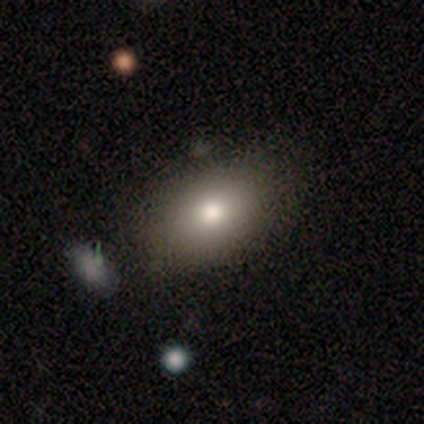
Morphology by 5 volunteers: Volunteers were most divided on "smooth or featured": featured or disk: 60%, smooth: 40%, star or artifact: 0%. More confident: edge-on disk — no (100%); bar — no (100%); spiral arms — no (100%); merging — none (80%); bulge size — moderate (67%).